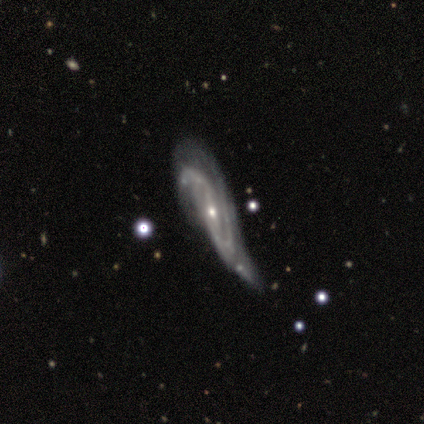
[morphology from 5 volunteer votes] This is clearly a featured or disk galaxy (80%). It is clearly not viewed edge-on (100%). Bar: likely weak (75%). Spiral arm pattern: clearly yes (100%). Spiral arm count: clearly 2 (100%). Spiral winding: clearly medium (100%). Central bulge: clearly small (100%). Merging: possibly major disturbance (50%).